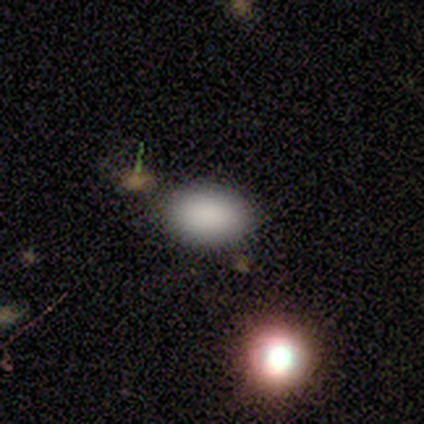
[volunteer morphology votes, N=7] A smooth galaxy with no disk features (71%) that is in between round and cigar-shaped (100%).

Vote fractions:
- Smooth or featured? smooth: 71% / featured or disk: 14% / star or artifact: 14%
- How rounded? in between: 100% / round: 0% / cigar-shaped: 0%
- Merging? none: 100% / minor disturbance: 0% / major disturbance: 0% / merger: 0%